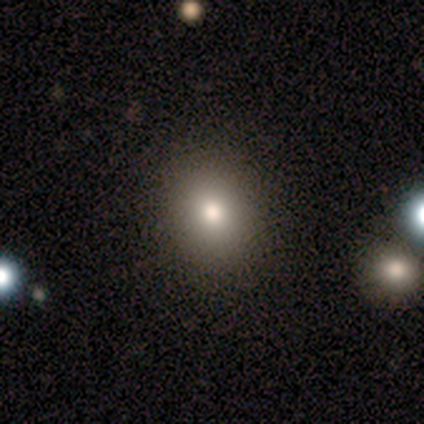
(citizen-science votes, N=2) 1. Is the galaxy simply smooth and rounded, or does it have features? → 100% featured or disk, 0% smooth, 0% star or artifact.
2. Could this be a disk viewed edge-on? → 100% no, 0% yes.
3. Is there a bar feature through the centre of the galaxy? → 100% no, 0% strong, 0% weak.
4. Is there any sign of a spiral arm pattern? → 100% no, 0% yes.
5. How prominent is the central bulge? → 100% moderate, 0% dominant, 0% large, 0% small, 0% none.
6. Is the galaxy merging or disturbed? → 100% none, 0% minor disturbance, 0% major disturbance, 0% merger.